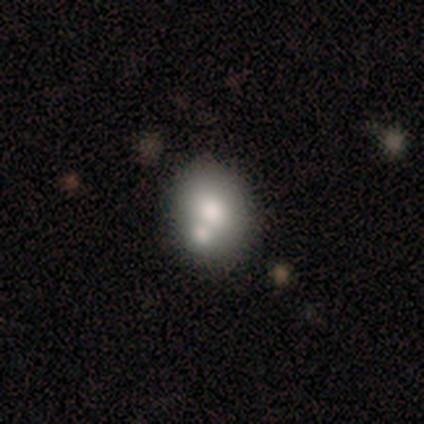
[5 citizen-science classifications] Volunteers were most divided on "smooth or featured": smooth: 60%, featured or disk: 40%, star or artifact: 0%. Remaining: how rounded — in between (100%); merging — merger (40%).